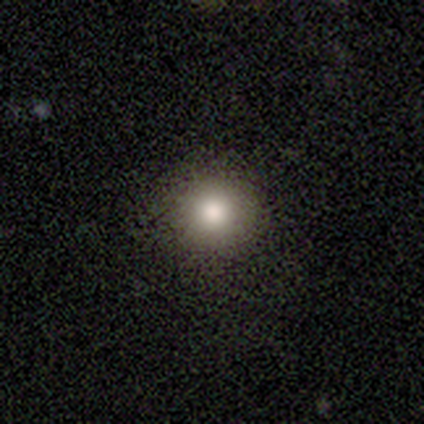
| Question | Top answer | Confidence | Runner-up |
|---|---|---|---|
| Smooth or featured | smooth | 72% | star or artifact (18%) |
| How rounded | round | 100% | — |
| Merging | none | 94% | minor disturbance (6%) |